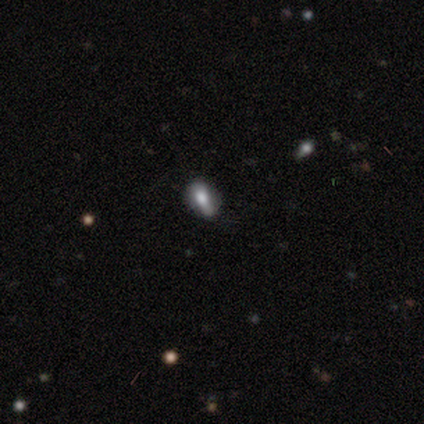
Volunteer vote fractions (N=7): This appears to be a smooth galaxy with no disk features (71%) that is in between round and cigar-shaped (80%). Merging: none (71%).